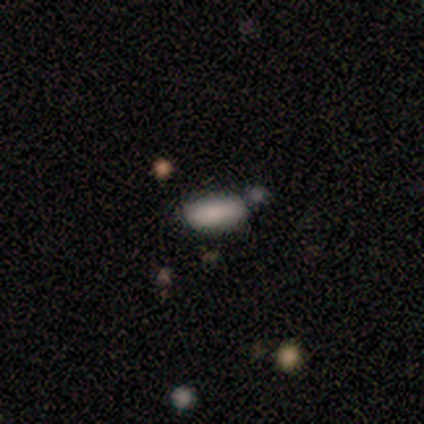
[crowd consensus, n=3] Smooth or featured? smooth (100%)
How rounded? cigar-shaped (67%)
Merging? none (100%)